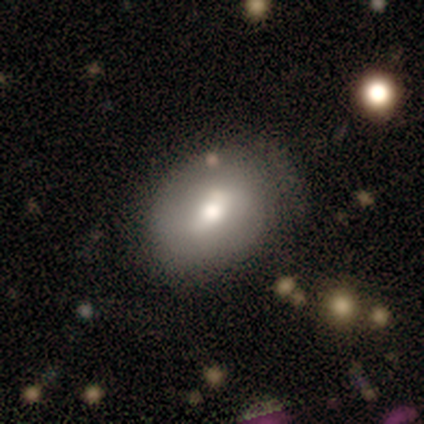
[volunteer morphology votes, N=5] Smooth or featured? smooth (60%)
How rounded? in between (67%)
Merging? none (100%)